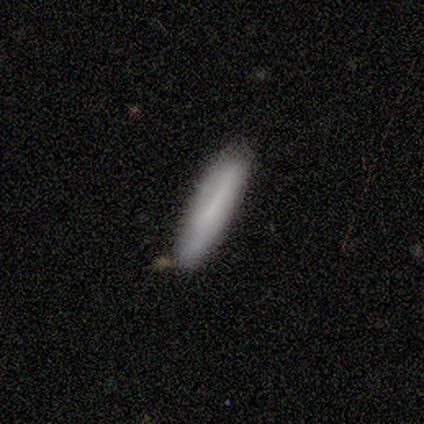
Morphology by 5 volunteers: Smooth or featured? smooth (100%)
How rounded? cigar-shaped (100%)
Merging? none (80%)